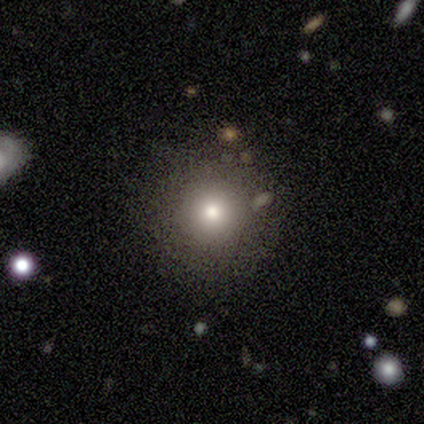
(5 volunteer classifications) Smooth or featured? smooth (60%)
How rounded? round (100%)
Merging? none (100%)